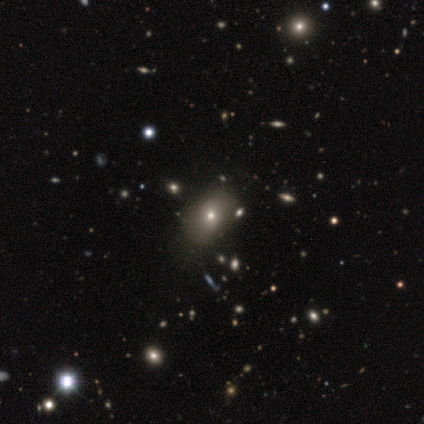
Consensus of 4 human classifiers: Smooth or featured? 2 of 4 (50%, tied with featured or disk) said smooth. How rounded? 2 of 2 (100%) said in between. Merging? 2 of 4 (50%) said none.